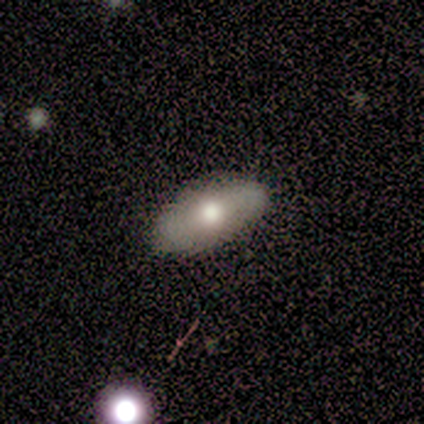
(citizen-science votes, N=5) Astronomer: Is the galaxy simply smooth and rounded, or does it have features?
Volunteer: smooth — 80%.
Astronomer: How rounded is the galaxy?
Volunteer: in between — 75%.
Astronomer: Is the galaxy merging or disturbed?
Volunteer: none — 100%.